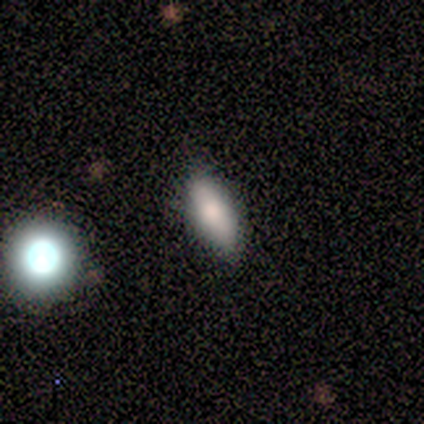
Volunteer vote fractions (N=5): A smooth galaxy with no disk features (80%) that is in between round and cigar-shaped (75%). Merging: none (75%).